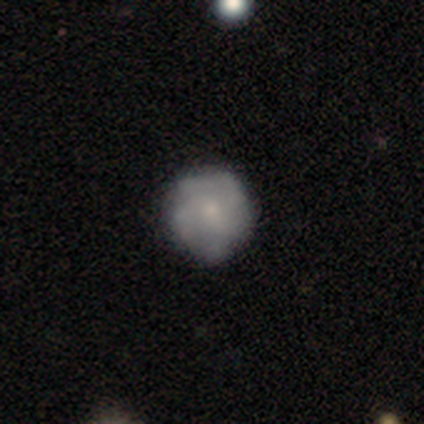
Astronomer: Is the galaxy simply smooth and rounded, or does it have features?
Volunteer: smooth — 50% (runner-up: featured or disk, 39%).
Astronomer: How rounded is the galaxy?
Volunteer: round — 89%.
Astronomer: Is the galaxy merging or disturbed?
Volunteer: none — 82%.